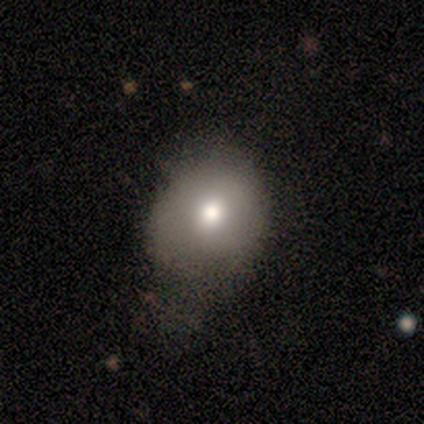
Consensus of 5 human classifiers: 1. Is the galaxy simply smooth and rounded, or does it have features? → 60% smooth, 40% featured or disk, 0% star or artifact.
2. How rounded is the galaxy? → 67% in between, 33% round, 0% cigar-shaped.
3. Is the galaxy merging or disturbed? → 60% minor disturbance, 20% none, 20% major disturbance, 0% merger.